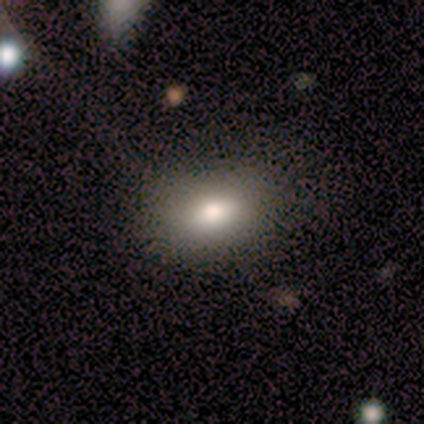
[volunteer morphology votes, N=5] Smooth or featured?
  - smooth: 60% *
  - featured or disk: 40%
  - star or artifact: 0%
How rounded?
  - in between: 100% *
  - round: 0%
  - cigar-shaped: 0%
Merging?
  - none: 60% *
  - minor disturbance: 20%
  - major disturbance: 20%
  - merger: 0%